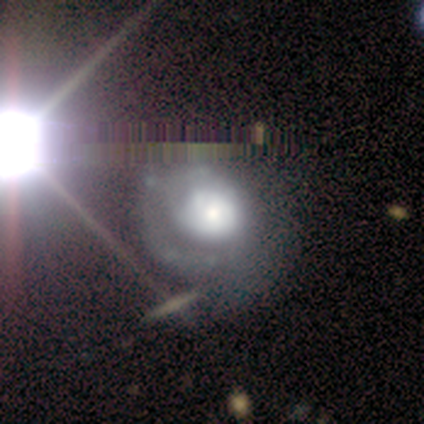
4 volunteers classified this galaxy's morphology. A featured or disk galaxy (100%) with no bar (100%), 1 (67%) tight (67%) spiral arms (75%) and a dominant central bulge (50%).

Vote fractions:
- Smooth or featured? featured or disk: 100% / smooth: 0% / star or artifact: 0%
- Edge-on disk? no: 100% / yes: 0%
- Bar? no: 100% / strong: 0% / weak: 0%
- Spiral arms? yes: 75% / no: 25%
- Spiral winding? tight: 67% / loose: 33% / medium: 0%
- Spiral arm count? 1: 67% / can't tell: 33% / 2: 0% / 3: 0% / 4: 0% / more than 4: 0%
- Bulge size? dominant: 50% / moderate: 25% / small: 25% / large: 0% / none: 0%
- Merging? none: 50% / minor disturbance: 25% / major disturbance: 25% / merger: 0%